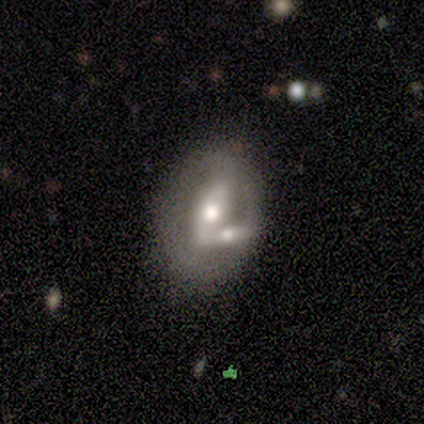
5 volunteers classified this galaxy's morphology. Overall: featured or disk (80%). Edge-on disk: no (75%). Bar: strong (67%; weak 33%). Spiral arms: no (100%). Bulge size: moderate (67%; large 33%). Merging: none (40%, tied with merger).